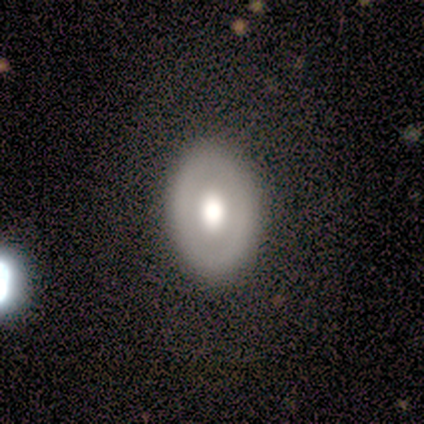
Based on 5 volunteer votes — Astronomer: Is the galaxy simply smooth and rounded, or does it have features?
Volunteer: smooth — 60% (runner-up: featured or disk, 40%).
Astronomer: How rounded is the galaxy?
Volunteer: in between — 67%.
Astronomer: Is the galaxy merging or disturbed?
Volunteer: none — 80%.